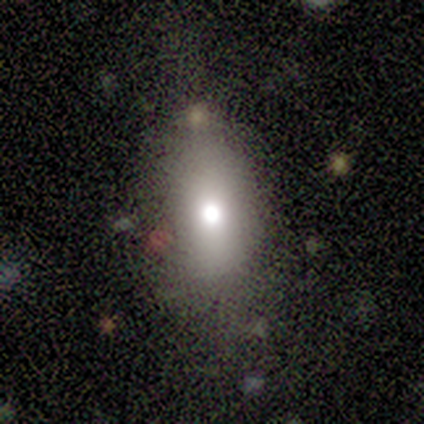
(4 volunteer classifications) A smooth galaxy with no disk features (75%) that is round (67%). Merging: minor disturbance (67%).